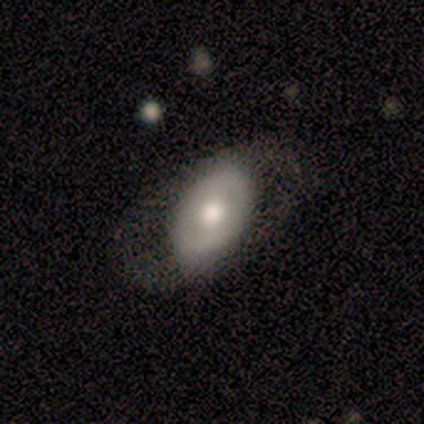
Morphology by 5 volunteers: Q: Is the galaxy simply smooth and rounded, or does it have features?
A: smooth — 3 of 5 (60%).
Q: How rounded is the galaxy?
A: in between — 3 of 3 (100%).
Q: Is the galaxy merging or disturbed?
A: none — 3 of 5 (60%).